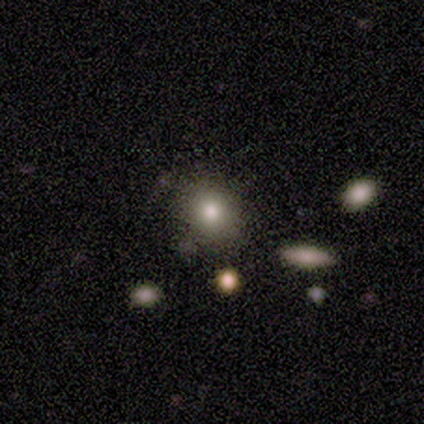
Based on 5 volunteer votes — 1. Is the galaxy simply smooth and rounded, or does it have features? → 60% smooth, 20% featured or disk, 20% star or artifact.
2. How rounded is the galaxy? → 33% round (tied), 33% in between (tied), 33% cigar-shaped (tied).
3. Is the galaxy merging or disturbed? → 50% none (tied), 50% minor disturbance (tied), 0% major disturbance, 0% merger.